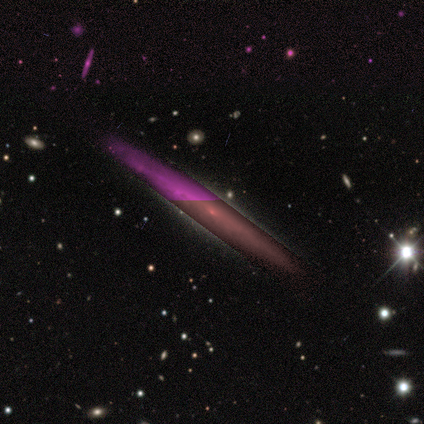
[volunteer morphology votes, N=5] smooth_or_featured: featured or disk (p=0.80) [alt: star or artifact p=0.20]
disk_edge_on: yes (p=0.75) [alt: no p=0.25]
edge_on_bulge: none (p=1.00)
merging: none (p=1.00)